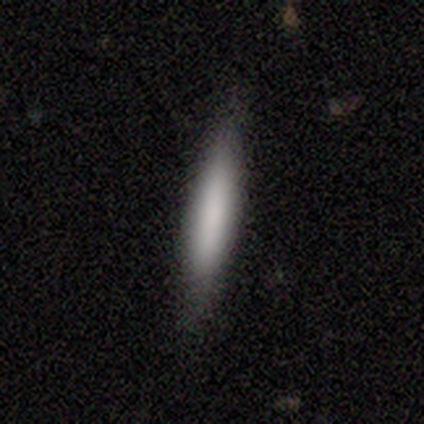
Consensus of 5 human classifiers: Smooth or featured? 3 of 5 (60%) said smooth. How rounded? 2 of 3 (67%) said cigar-shaped. Merging? 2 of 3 (67%) said none.